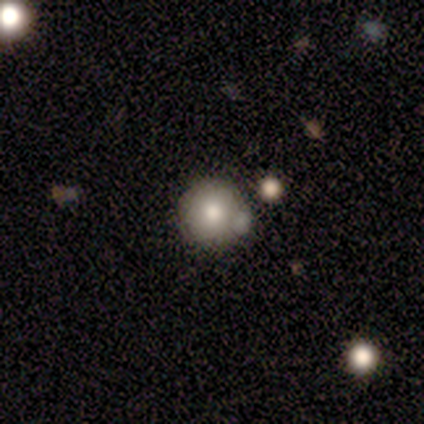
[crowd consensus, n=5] Smooth or featured? 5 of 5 (100%) said smooth. How rounded? 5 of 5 (100%) said round. Merging? 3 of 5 (60%) said none.